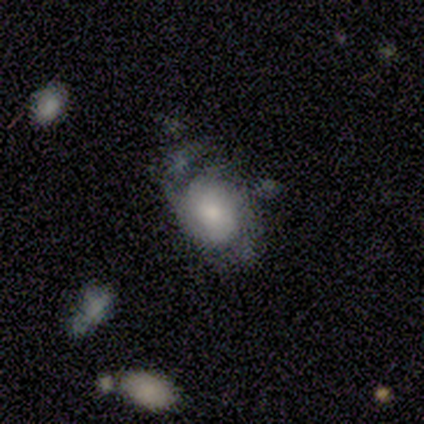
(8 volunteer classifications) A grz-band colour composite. It shows a featured or disk galaxy (75%) with no bar (100%), medium (50%) spiral arms (100%) and a moderate central bulge (50%). Merging: none (38%, tied with major disturbance).